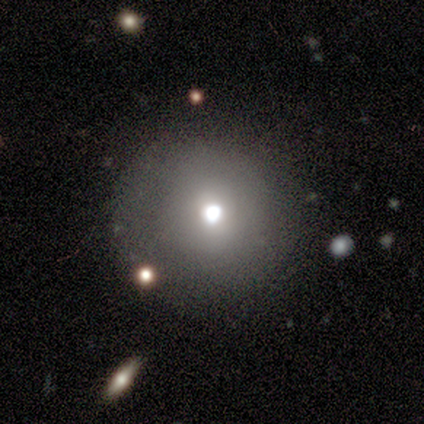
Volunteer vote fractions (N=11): smooth 73%, star or artifact 27%, featured or disk 0%. Down the decision tree: how rounded — round (88%); merging — none (75%).